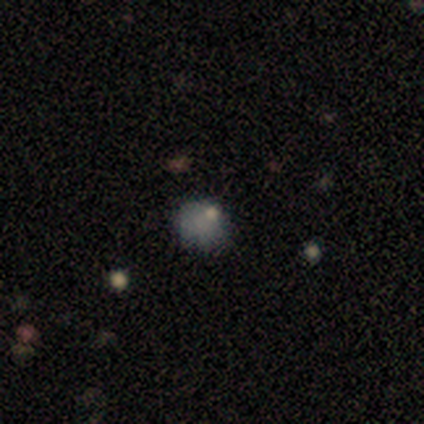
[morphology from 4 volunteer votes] Smooth or featured? 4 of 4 (100%) said smooth. How rounded? 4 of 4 (100%) said round. Merging? 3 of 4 (75%) said none.